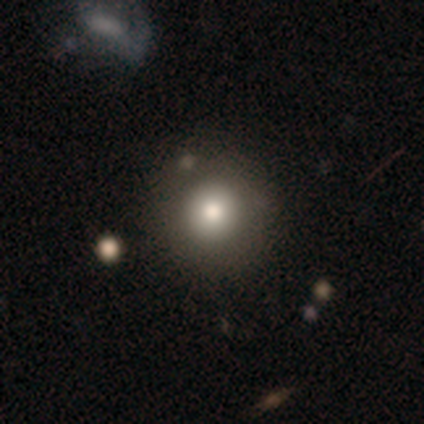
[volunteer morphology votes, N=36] Smooth or featured: smooth — 81% (featured or disk — 11%)
How rounded: round — 97% (in between — 3%)
Merging: none — 88% (minor disturbance — 9%)